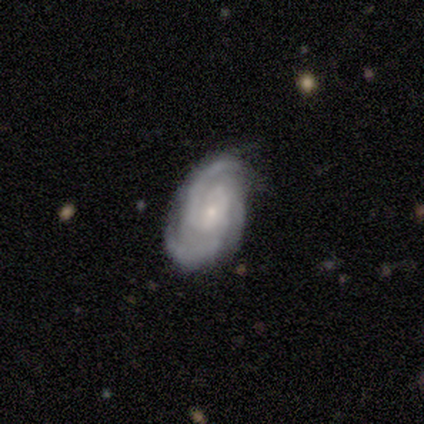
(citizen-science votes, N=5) smooth_or_featured: featured or disk (p=1.00)
disk_edge_on: no (p=1.00)
bar: no (p=0.60) [alt: weak p=0.40]
has_spiral_arms: yes (p=1.00)
spiral_winding: medium (p=0.60) [alt: tight p=0.20]
spiral_arm_count: 3 (p=0.60) [alt: 2 p=0.40]
bulge_size: small (p=0.80) [alt: moderate p=0.20]
merging: none (p=0.60) [alt: minor disturbance p=0.20]